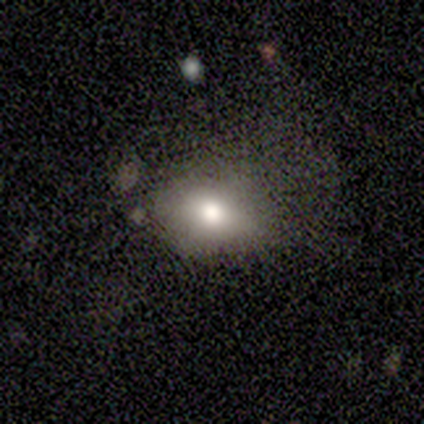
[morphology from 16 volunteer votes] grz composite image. It shows a smooth galaxy with no disk features (69%) that is in between round and cigar-shaped (82%). Merging: none (46%, tied with minor disturbance).